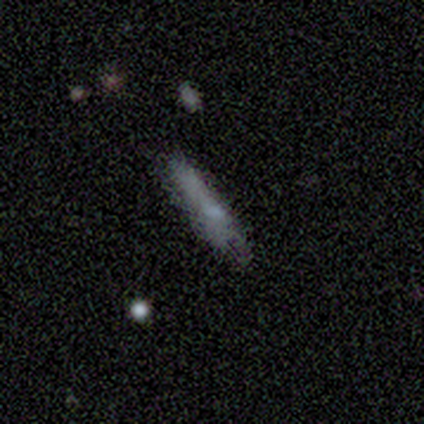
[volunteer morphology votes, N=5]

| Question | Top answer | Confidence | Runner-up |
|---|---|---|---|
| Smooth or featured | smooth | 80% | featured or disk (20%) |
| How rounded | cigar-shaped | 100% | — |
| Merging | none | 60% | minor disturbance (40%) |